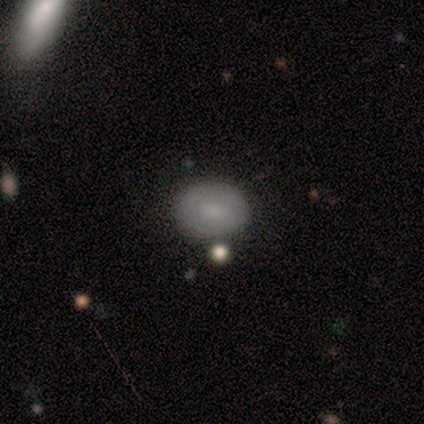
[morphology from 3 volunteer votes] Smooth or featured: smooth — 100%
How rounded: in between — 67% (round — 33%)
Merging: none — 67% (minor disturbance — 33%)